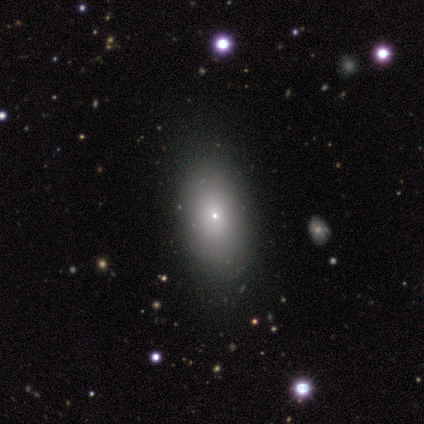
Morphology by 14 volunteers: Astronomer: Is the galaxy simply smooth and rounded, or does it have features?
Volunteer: smooth — 50% (runner-up: featured or disk, 36%).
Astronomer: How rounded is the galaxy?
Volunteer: in between — 86%.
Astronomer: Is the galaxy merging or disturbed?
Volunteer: none — 92%.